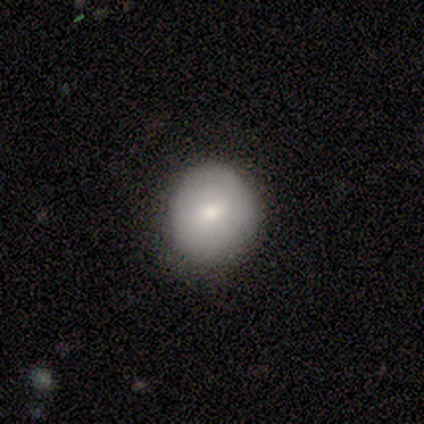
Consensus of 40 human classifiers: Volunteers were most divided on "smooth or featured": smooth: 78%, featured or disk: 15%, star or artifact: 8%. More confident: how rounded — round (94%); merging — none (84%).